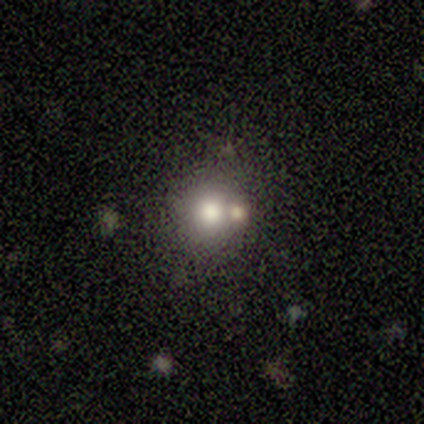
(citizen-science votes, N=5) Q: Smooth or featured?
A: smooth (80%); runner-up: featured or disk (20%)
Q: How rounded?
A: round (100%)
Q: Merging?
A: none (60%); runner-up: merger (40%)